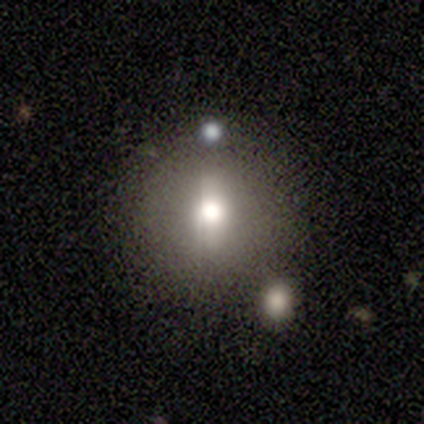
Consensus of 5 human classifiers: Volunteers were most divided on "smooth or featured": smooth: 60%, star or artifact: 40%, featured or disk: 0%. More confident: how rounded — round (100%); merging — none (67%).